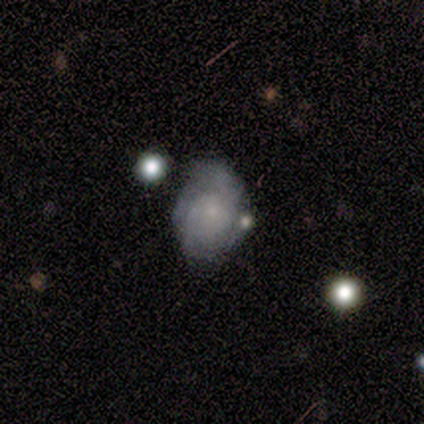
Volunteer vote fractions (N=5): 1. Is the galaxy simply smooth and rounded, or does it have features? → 100% featured or disk, 0% smooth, 0% star or artifact.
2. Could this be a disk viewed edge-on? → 100% no, 0% yes.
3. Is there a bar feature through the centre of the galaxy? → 100% no, 0% strong, 0% weak.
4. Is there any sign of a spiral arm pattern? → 80% yes, 20% no.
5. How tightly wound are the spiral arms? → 50% tight (tied), 50% medium (tied), 0% loose.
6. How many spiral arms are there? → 50% 3 (tied), 50% can't tell (tied), 0% 1, 0% 2, 0% 4, 0% more than 4.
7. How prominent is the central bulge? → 80% small, 20% large, 0% dominant, 0% moderate, 0% none.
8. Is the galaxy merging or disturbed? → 60% none, 20% minor disturbance, 20% merger, 0% major disturbance.